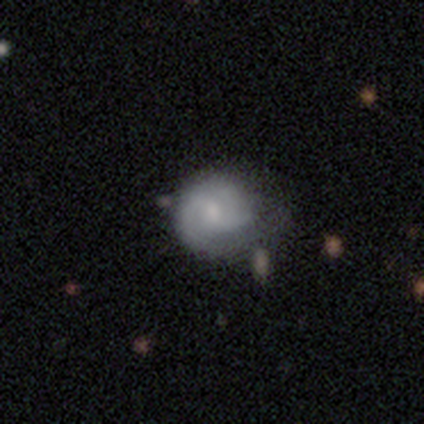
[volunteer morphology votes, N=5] This is likely a featured or disk galaxy (60%). It is clearly not viewed edge-on (100%). Bar: clearly weak (100%). Spiral arm pattern: clearly yes (100%). Spiral arm count: clearly 2 (100%). Spiral winding: clearly medium (100%). Central bulge: likely small (67%). Merging: marginally none (40%, tied with minor disturbance).